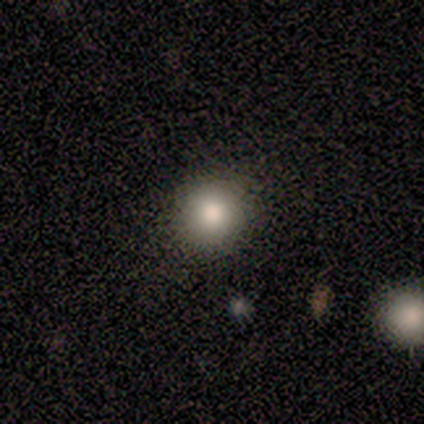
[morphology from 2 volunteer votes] Volunteers were most divided on "smooth or featured" (2-way tie): smooth: 50%, star or artifact: 50%, featured or disk: 0%. More confident: how rounded — round (100%); merging — none (100%).